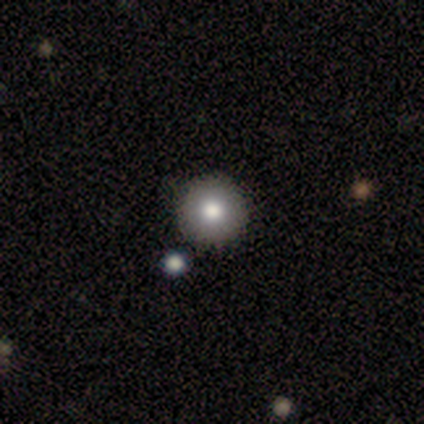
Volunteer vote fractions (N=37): Smooth or featured: smooth — 73% (featured or disk — 19%)
How rounded: round — 100%
Merging: none — 94% (minor disturbance — 6%)